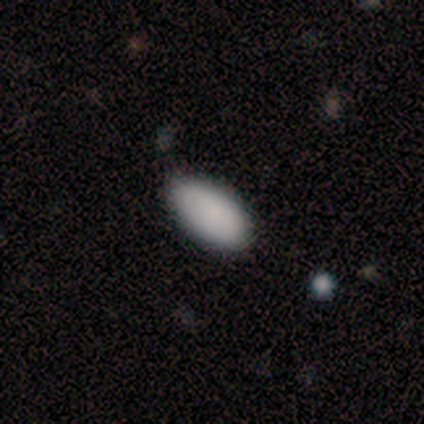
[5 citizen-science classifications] Volunteers were most divided on "smooth or featured": smooth: 80%, featured or disk: 20%, star or artifact: 0%. More confident: how rounded — in between (100%); merging — none (80%).